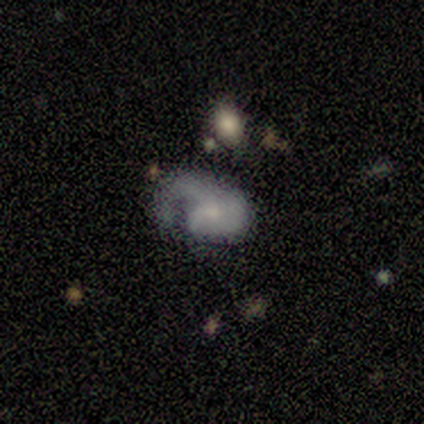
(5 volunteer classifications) Smooth or featured? 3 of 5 (60%) said smooth. How rounded? 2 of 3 (67%) said in between. Merging? 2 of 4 (50%) said major disturbance.